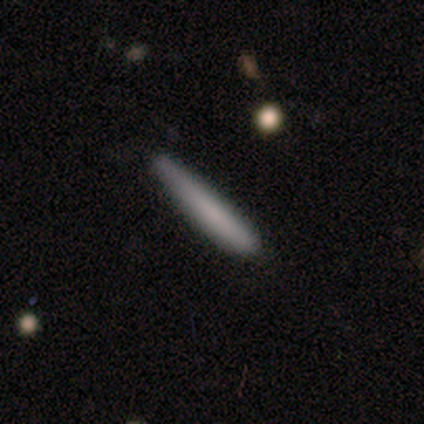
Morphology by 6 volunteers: A smooth galaxy with no disk features (83%) that is cigar-shaped (100%). Merging: none (83%).